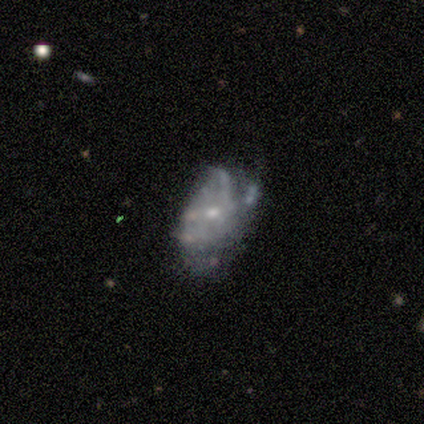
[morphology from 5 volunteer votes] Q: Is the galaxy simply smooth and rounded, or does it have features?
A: featured or disk — 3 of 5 (60%).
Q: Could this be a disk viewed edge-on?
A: no — 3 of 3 (100%).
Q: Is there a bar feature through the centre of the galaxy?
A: no — 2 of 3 (67%).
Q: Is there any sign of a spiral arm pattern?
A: yes — 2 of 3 (67%).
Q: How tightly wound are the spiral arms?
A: medium — 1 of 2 (50%, tied with loose).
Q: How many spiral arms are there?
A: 2 — 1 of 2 (50%, tied with 4).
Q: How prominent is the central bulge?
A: moderate — 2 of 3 (67%).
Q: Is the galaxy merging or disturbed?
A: minor disturbance — 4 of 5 (80%).